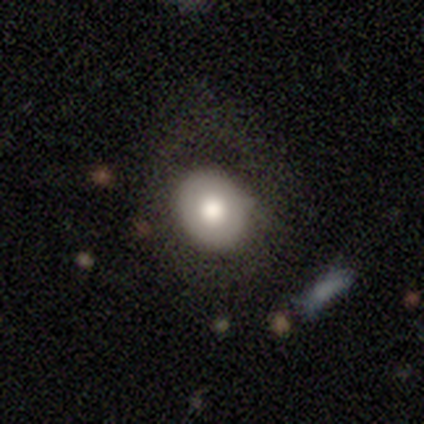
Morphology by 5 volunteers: Q: Smooth or featured?
A: smooth (100%)
Q: How rounded?
A: round (100%)
Q: Merging?
A: none (40%); tied with: major disturbance (40%)